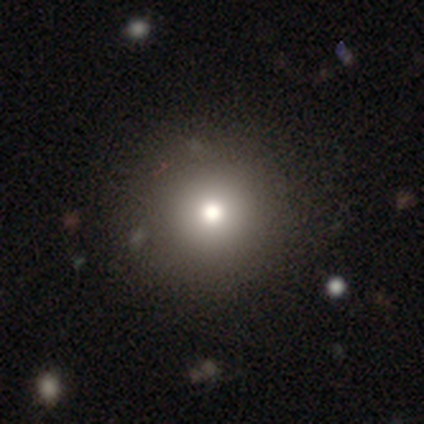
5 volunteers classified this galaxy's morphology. smooth_or_featured: smooth (p=0.60) [alt: featured or disk p=0.20]
how_rounded: round (p=1.00)
merging: none (p=1.00)